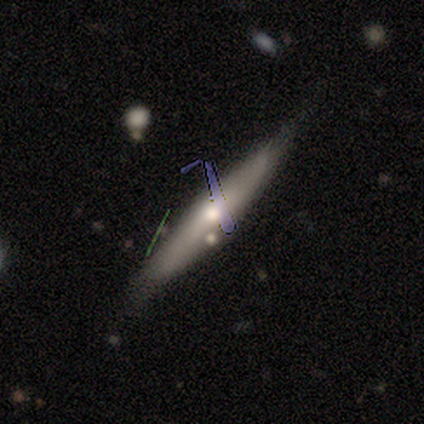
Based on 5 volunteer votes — smooth-or-featured: featured or disk: 60% | smooth: 20% | star or artifact: 20%
  disk-edge-on: yes: 100% | no: 0%
    edge-on-bulge: rounded: 100% | boxy: 0% | none: 0%
  merging: none: 100% | minor disturbance: 0% | major disturbance: 0% | merger: 0%